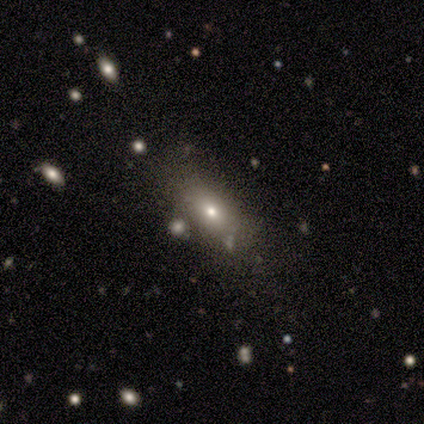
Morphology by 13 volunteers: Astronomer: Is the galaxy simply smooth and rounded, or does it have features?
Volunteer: smooth — 77%.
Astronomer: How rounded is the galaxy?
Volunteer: in between — 80%.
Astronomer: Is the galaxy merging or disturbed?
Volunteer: none — 58%.